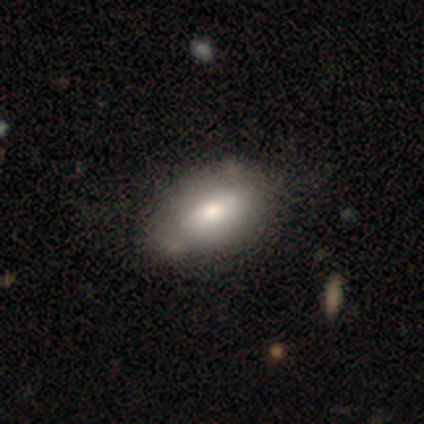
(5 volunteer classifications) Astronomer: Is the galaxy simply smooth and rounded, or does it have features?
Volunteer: smooth — 40%, tied with star or artifact at 40%.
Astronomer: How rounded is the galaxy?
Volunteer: in between — 100%.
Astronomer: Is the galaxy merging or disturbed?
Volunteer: none — 33%, tied with minor disturbance and major disturbance at 33%.